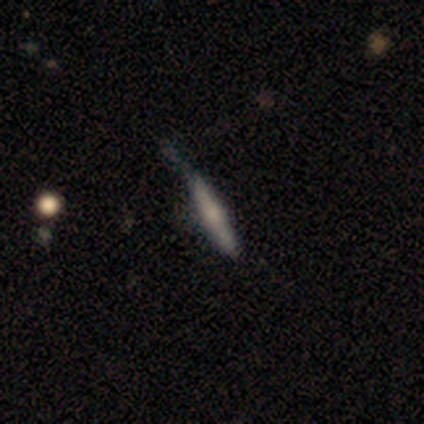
Overall: smooth (100%). How rounded: cigar-shaped (100%). Merging: none (100%).